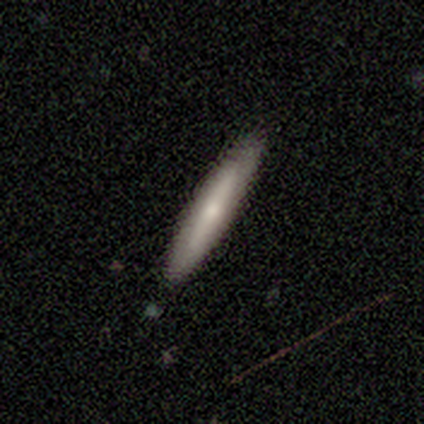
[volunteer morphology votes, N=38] smooth 61%, featured or disk 37%, star or artifact 3%. Down the decision tree: how rounded — cigar-shaped (96%); merging — none (92%).